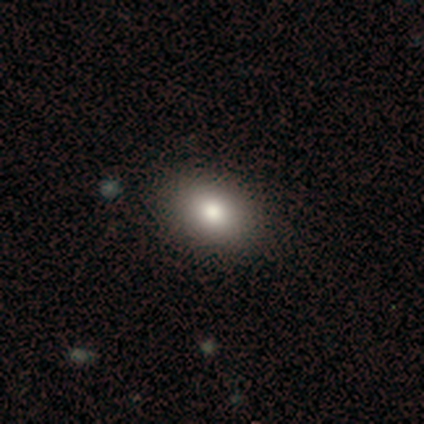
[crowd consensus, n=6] smooth 83%, star or artifact 17%, featured or disk 0%. Down the decision tree: how rounded — in between (80%); merging — none (60%).